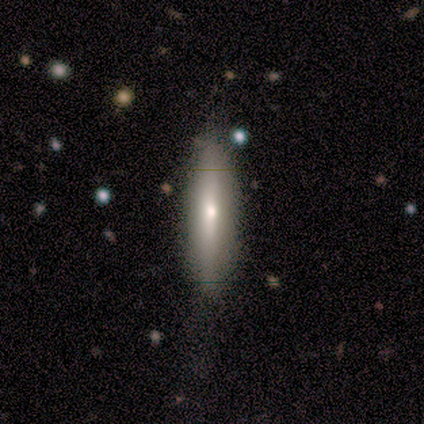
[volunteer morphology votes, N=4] Q: Smooth or featured?
A: featured or disk (75%); runner-up: smooth (25%)
Q: Edge-on disk?
A: yes (67%); runner-up: no (33%)
Q: Edge-on bulge?
A: none (50%); tied with: rounded (50%)
Q: Merging?
A: none (50%); runner-up: minor disturbance (25%)